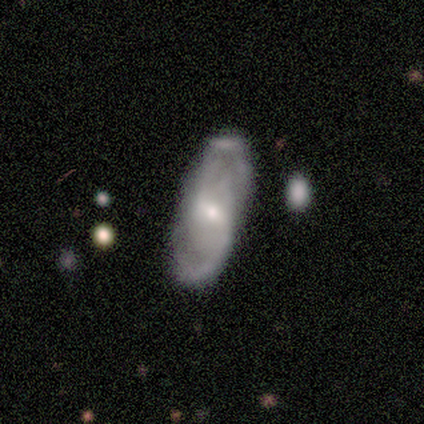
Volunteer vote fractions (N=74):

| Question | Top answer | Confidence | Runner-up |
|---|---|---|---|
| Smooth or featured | featured or disk | 73% | smooth (22%) |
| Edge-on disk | no | 91% | yes (9%) |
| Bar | weak | 61% | strong (20%) |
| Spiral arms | yes | 71% | no (29%) |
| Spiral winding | loose | 40% | medium (31%) |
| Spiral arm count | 2 | 63% | can't tell (29%) |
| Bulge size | small | 55% | moderate (39%) |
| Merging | none | 69% | minor disturbance (21%) |